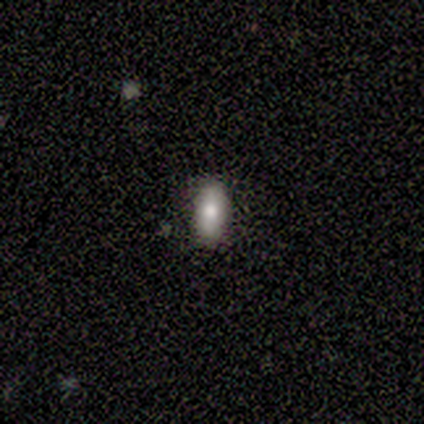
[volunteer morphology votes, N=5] This is clearly a smooth galaxy (80%). How rounded: possibly in between (50%). Merging: clearly none (100%).